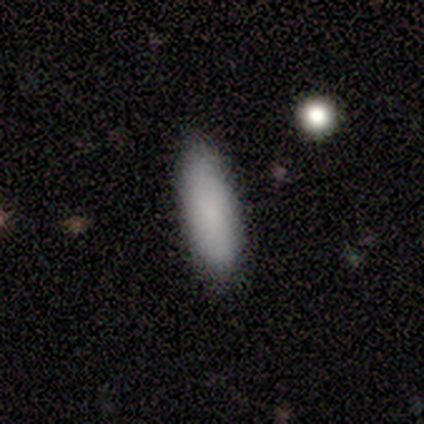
Smooth or featured? smooth (74%)
How rounded? in between (52%)
Merging? none (69%)